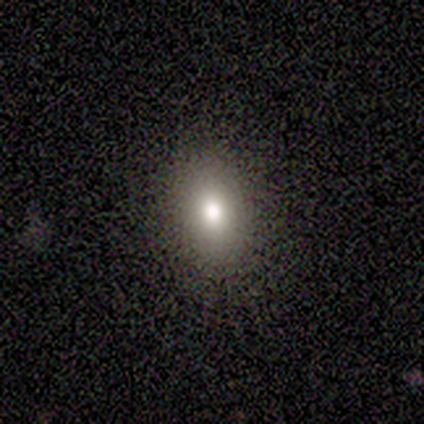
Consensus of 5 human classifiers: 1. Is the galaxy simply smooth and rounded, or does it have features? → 80% smooth, 20% star or artifact, 0% featured or disk.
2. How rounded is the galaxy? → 50% round (tied), 50% in between (tied), 0% cigar-shaped.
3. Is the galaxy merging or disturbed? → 100% none, 0% minor disturbance, 0% major disturbance, 0% merger.